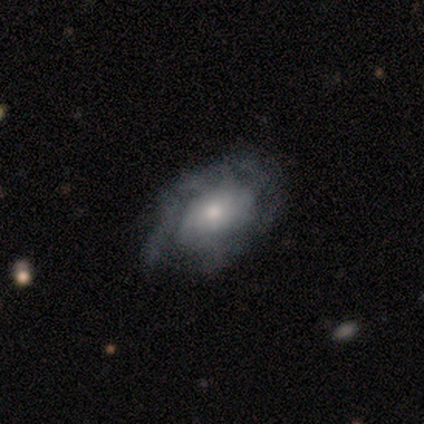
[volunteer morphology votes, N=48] Smooth or featured: featured or disk — 62% (smooth — 29%)
Edge-on disk: no — 90% (yes — 10%)
Bar: no — 74% (weak — 15%)
Spiral arms: yes — 63% (no — 37%)
Spiral winding: tight — 82% (medium — 18%)
Spiral arm count: can't tell — 71% (2 — 12%)
Bulge size: small — 44% (moderate — 37%)
Merging: none — 66% (minor disturbance — 23%)